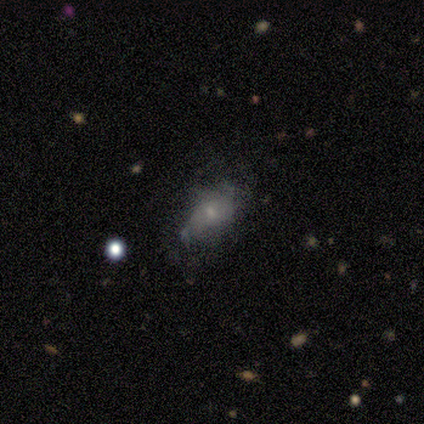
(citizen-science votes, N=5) Morphology: type=smooth (60%); roundness=in between (100%); merging=none (50%, tied with major disturbance).